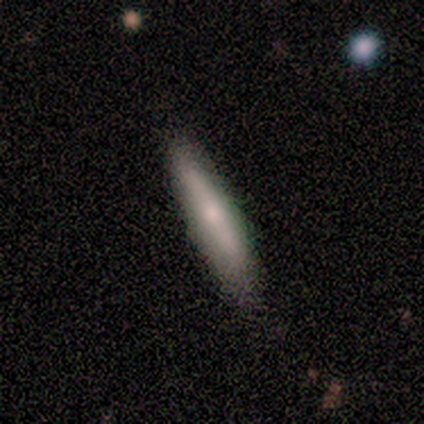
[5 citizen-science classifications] Smooth or featured? smooth (60%)
How rounded? cigar-shaped (100%)
Merging? none (50%)